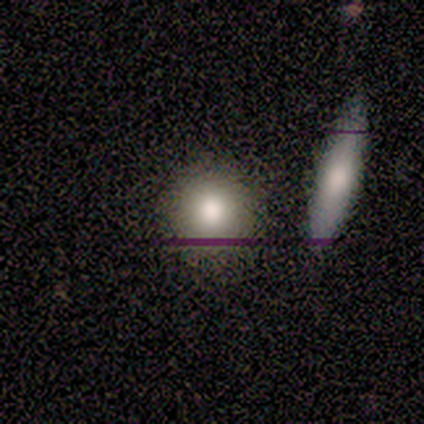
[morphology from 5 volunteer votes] Q: Smooth or featured?
A: smooth (60%); runner-up: featured or disk (20%)
Q: How rounded?
A: round (100%)
Q: Merging?
A: none (100%)